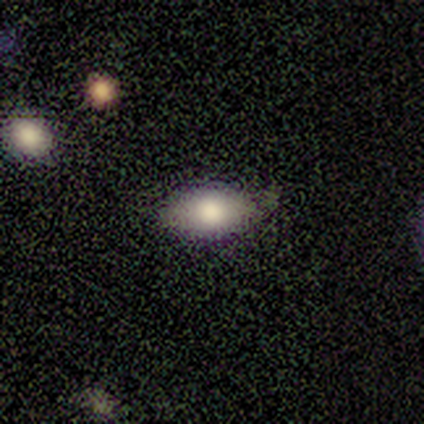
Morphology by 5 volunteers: This appears to be a smooth galaxy with no disk features (80%) that is in between round and cigar-shaped (100%). Merging: none (60%).